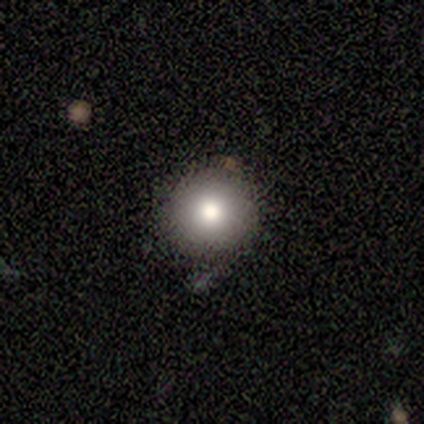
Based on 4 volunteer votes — Morphology: type=smooth (75%); roundness=round (100%); merging=none (67%).